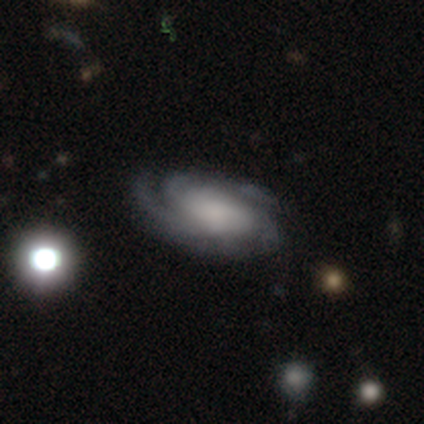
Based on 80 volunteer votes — Smooth or featured? featured or disk (88%)
Edge-on disk? no (96%)
Bar? no (70%)
Spiral arms? yes (100%)
Spiral winding? tight (52%)
Spiral arm count? 2 (36%)
Bulge size? none (27%)
Merging? none (71%)